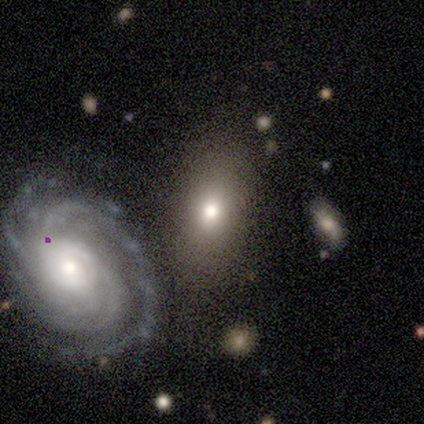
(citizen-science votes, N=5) Smooth or featured: smooth — 60% (featured or disk — 40%)
How rounded: in between — 100%
Merging: minor disturbance — 60% (none — 20%)